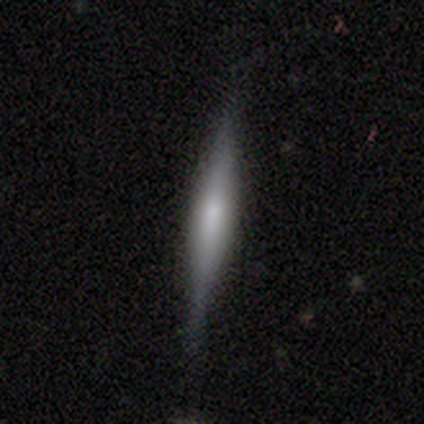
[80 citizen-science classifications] Volunteers were most divided on "edge-on bulge": rounded: 46%, boxy: 37%, none: 17%. Remaining: edge-on disk — yes (89%); smooth or featured — featured or disk (57%); merging — none (36%).